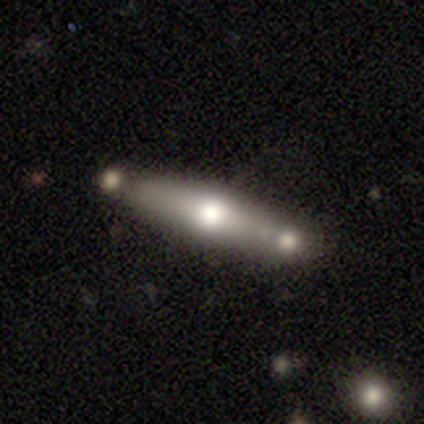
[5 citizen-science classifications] Overall: smooth (60%; featured or disk 40%). How rounded: cigar-shaped (100%). Merging: none (100%).